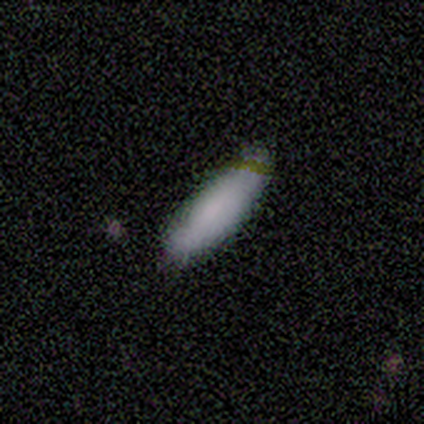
This appears to be a smooth galaxy with no disk features (60%) that is in between round and cigar-shaped (67%). Merging: none (100%).